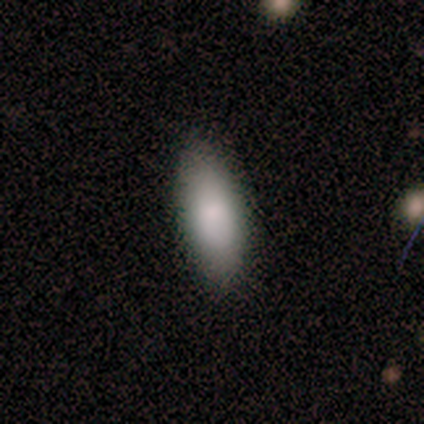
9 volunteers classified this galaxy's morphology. smooth_or_featured: smooth (p=1.00)
how_rounded: in between (p=0.89) [alt: cigar-shaped p=0.11]
merging: none (p=1.00)